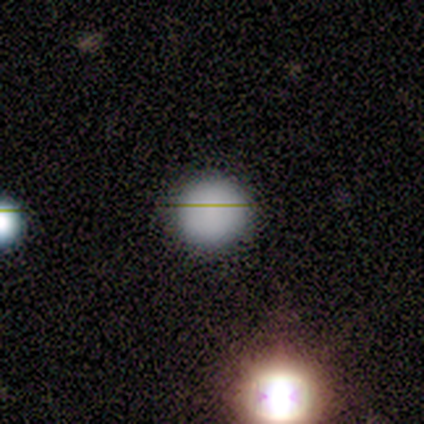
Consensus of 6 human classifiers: Q: Smooth or featured?
A: smooth (83%); runner-up: star or artifact (17%)
Q: How rounded?
A: round (100%)
Q: Merging?
A: none (80%); runner-up: minor disturbance (20%)